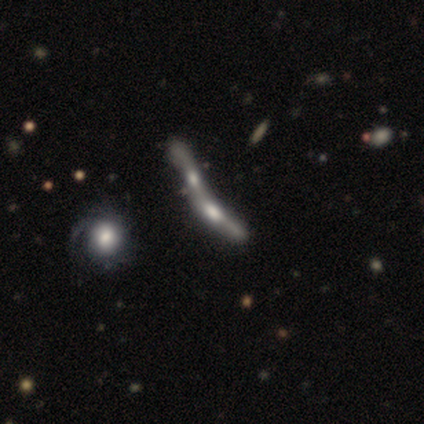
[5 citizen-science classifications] This appears to be a featured or disk galaxy (80%) viewed edge-on (50%, tied with no) with a boxy central bulge (50%, tied with rounded). Merging: merger (50%).